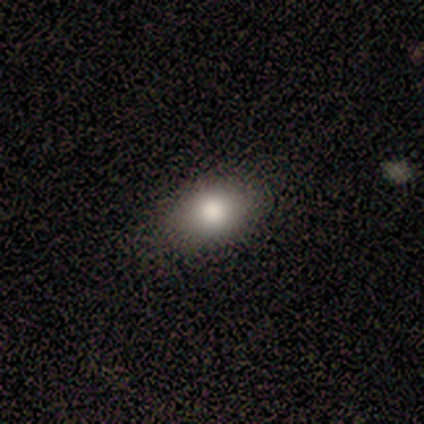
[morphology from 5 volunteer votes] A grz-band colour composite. It shows a smooth galaxy with no disk features (80%) that is in between round and cigar-shaped (75%). Merging: none (100%).